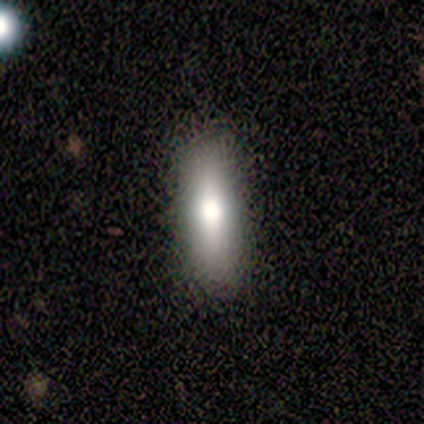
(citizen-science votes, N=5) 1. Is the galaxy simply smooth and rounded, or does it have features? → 80% smooth, 20% star or artifact, 0% featured or disk.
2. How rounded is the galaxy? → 75% cigar-shaped, 25% in between, 0% round.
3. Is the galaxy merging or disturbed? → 100% none, 0% minor disturbance, 0% major disturbance, 0% merger.